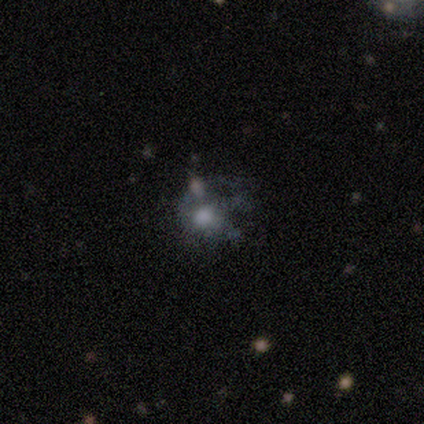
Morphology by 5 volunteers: Overall: smooth (40%, tied with featured or disk). How rounded: in between (100%). Merging: minor disturbance (50%; none 25%).